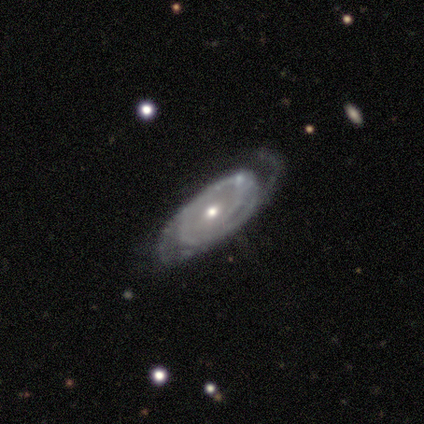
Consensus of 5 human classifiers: Morphology: type=featured or disk (60%); edge-on=no (67%); bar=no (100%); spiral arms=yes (50%, tied with no); winding=tight (100%); arm count=2 (100%); bulge=moderate (50%, tied with small); merging=none (60%).